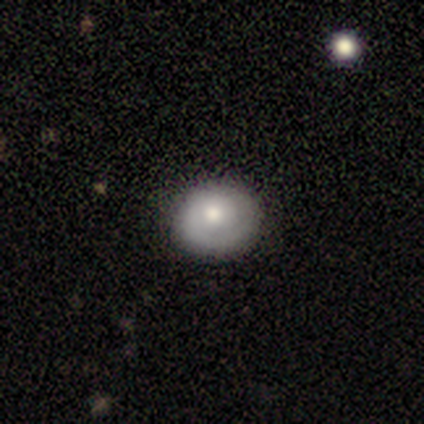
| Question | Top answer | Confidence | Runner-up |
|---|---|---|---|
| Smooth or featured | featured or disk | 60% | smooth (40%) |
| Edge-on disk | no | 100% | — |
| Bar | no | 67% | weak (33%) |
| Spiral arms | yes | 67% | no (33%) |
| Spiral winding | tight | 100% | — |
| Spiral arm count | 1 | 100% | — |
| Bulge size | moderate | 67% | small (33%) |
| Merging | none | 60% | minor disturbance (40%) |